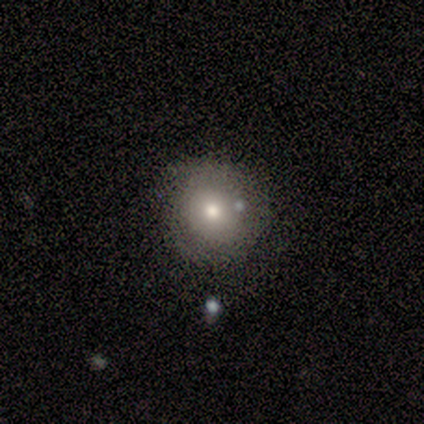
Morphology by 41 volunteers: This appears to be a smooth galaxy with no disk features (68%) that is round (89%). Merging: none (62%).